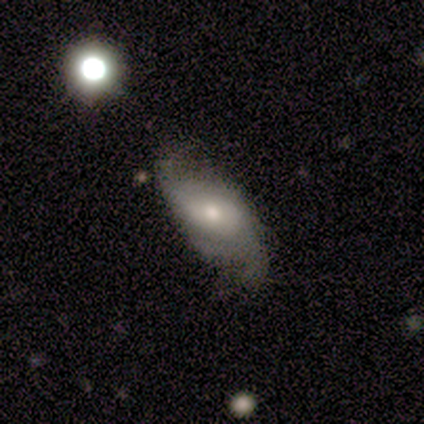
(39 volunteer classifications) Overall: featured or disk (59%; smooth 26%). Edge-on disk: no (96%). Bar: no (55%; weak 41%). Spiral arms: yes (77%). Spiral arm count: 2 (82%). Spiral winding: loose (59%; medium 41%). Bulge size: small (45%; moderate 36%). Merging: none (52%; minor disturbance 21%).